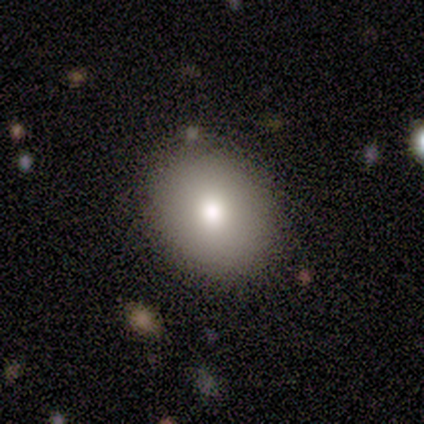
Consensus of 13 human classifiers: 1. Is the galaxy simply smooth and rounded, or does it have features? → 77% smooth, 15% star or artifact, 8% featured or disk.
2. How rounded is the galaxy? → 60% round, 40% in between, 0% cigar-shaped.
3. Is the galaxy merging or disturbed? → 82% none, 9% minor disturbance, 9% merger, 0% major disturbance.